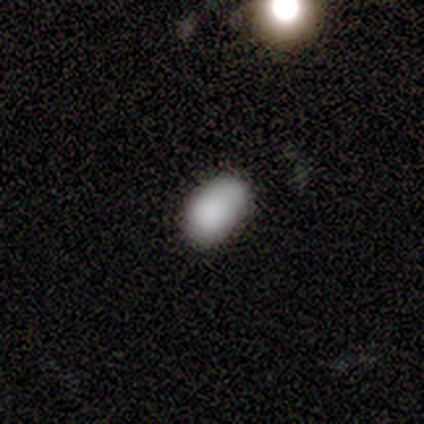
This is clearly a smooth galaxy (80%). How rounded: likely in between (75%). Merging: likely none (60%).